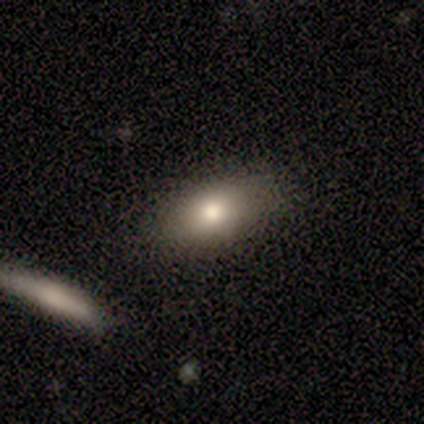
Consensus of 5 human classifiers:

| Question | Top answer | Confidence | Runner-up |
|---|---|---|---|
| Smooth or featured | smooth | 80% | featured or disk (20%) |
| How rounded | in between | 75% | round (25%) |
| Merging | none | 100% | — |